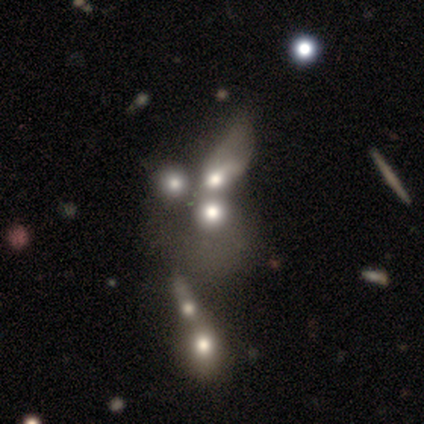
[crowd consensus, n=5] Q: Smooth or featured?
A: featured or disk (80%); runner-up: star or artifact (20%)
Q: Edge-on disk?
A: no (100%)
Q: Bar?
A: no (100%)
Q: Spiral arms?
A: no (100%)
Q: Bulge size?
A: large (75%); runner-up: small (25%)
Q: Merging?
A: merger (75%); runner-up: none (25%)